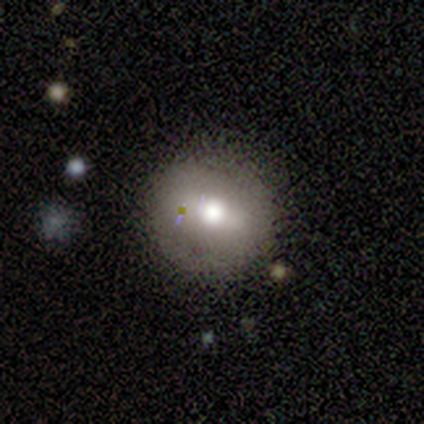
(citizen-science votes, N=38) Q: Smooth or featured?
A: smooth (63%); runner-up: featured or disk (32%)
Q: How rounded?
A: round (88%); runner-up: in between (12%)
Q: Merging?
A: none (86%); runner-up: minor disturbance (6%)